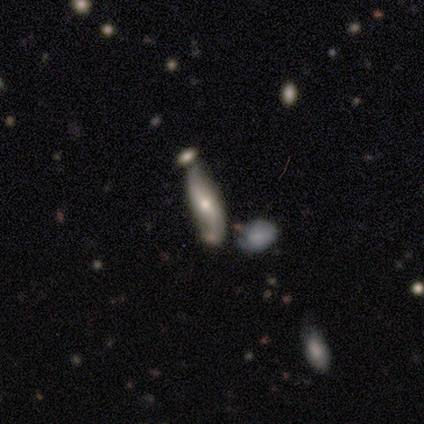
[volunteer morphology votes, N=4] This appears to be a featured or disk galaxy (75%) viewed edge-on (67%) with a boxy central bulge (50%, tied with rounded). Merging: minor disturbance (50%).